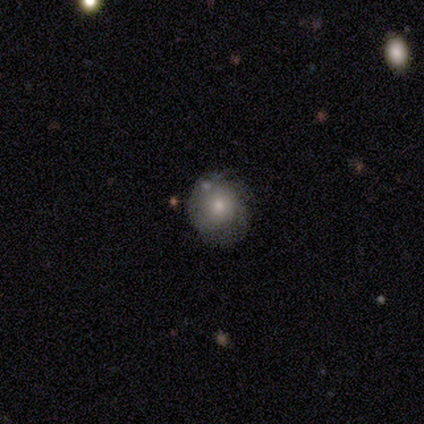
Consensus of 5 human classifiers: Smooth or featured? smooth (60%)
How rounded? round (67%)
Merging? none (80%)